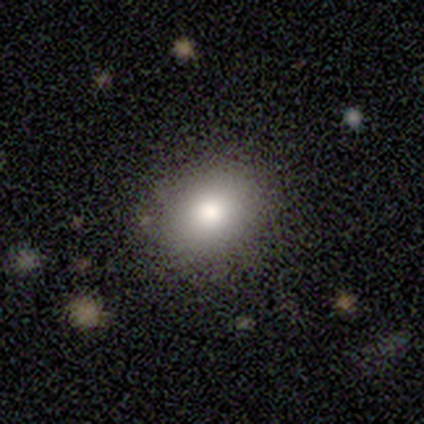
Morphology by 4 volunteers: Volunteers were most divided on "smooth or featured": smooth: 50%, featured or disk: 25%, star or artifact: 25%. More confident: how rounded — in between (100%); merging — none (100%).